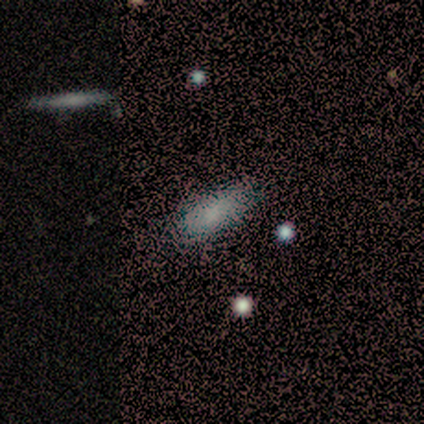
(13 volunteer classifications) Overall: smooth (92%). How rounded: in between (75%). Merging: none (58%; minor disturbance 42%).